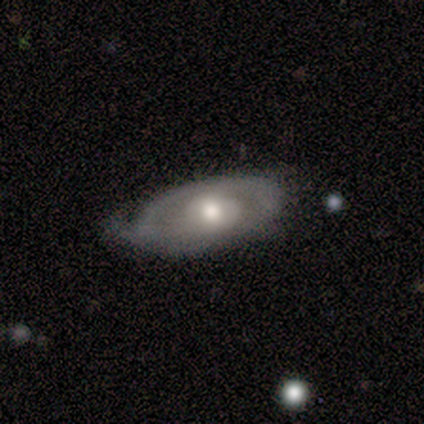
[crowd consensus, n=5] smooth_or_featured: smooth (p=0.60) [alt: featured or disk p=0.40]
how_rounded: in between (p=1.00)
merging: none (p=0.80) [alt: minor disturbance p=0.20]